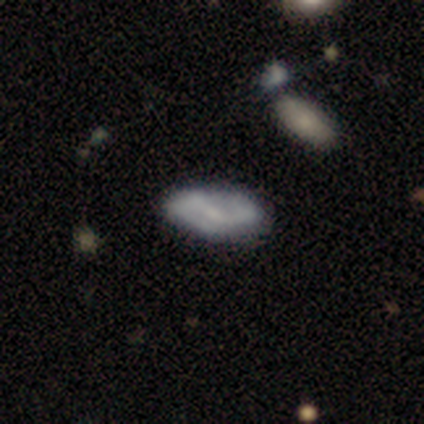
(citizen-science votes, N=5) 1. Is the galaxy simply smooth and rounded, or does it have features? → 60% featured or disk, 20% smooth, 20% star or artifact.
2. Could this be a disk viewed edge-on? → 100% no, 0% yes.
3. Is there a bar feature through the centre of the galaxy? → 67% weak, 33% no, 0% strong.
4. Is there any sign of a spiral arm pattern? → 100% yes, 0% no.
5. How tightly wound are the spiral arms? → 33% tight (tied), 33% medium (tied), 33% loose (tied).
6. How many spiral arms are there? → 100% 2, 0% 1, 0% 3, 0% 4, 0% more than 4, 0% can't tell.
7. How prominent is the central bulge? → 67% small, 33% none, 0% dominant, 0% large, 0% moderate.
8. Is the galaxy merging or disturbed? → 100% none, 0% minor disturbance, 0% major disturbance, 0% merger.